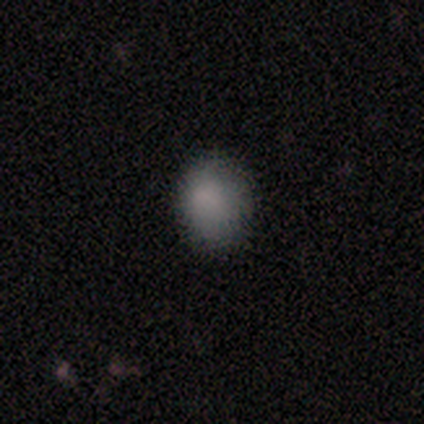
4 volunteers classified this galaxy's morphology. type=smooth (50%, tied with star or artifact); roundness=round (50%, tied with in between); merging=none (50%, tied with merger).